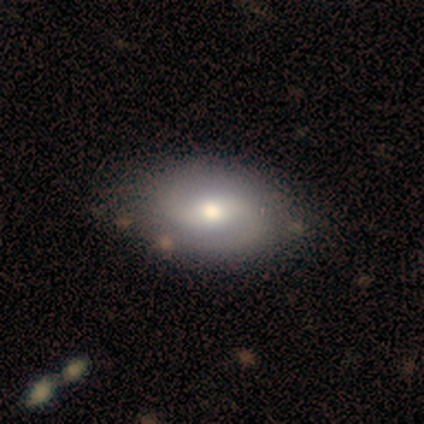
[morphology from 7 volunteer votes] featured or disk 43% (tied), star or artifact 43% (tied), smooth 14%. Down the decision tree: edge-on disk — no (100%); bar — weak (67%); spiral arms — yes (100%); spiral arm count — 2 (100%); spiral winding — medium (67%); bulge size — large (67%); merging — none (100%).